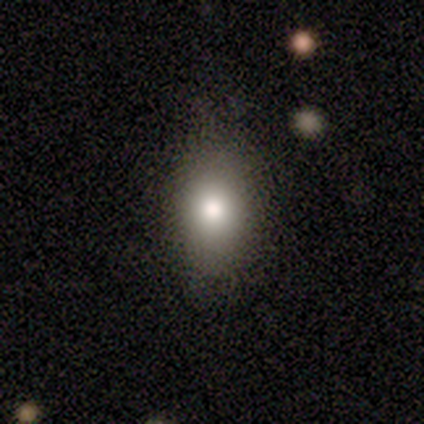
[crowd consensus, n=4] smooth_or_featured: smooth (p=0.75) [alt: star or artifact p=0.25]
how_rounded: in between (p=0.67) [alt: round p=0.33]
merging: none (p=0.67) [alt: merger p=0.33]